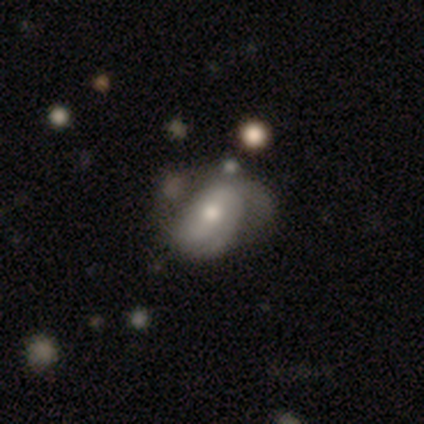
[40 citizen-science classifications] This appears to be a featured or disk galaxy (72%) with no bar (41%), tight (48%) spiral arms (86%) and a moderate central bulge (69%). Merging: none (28%).